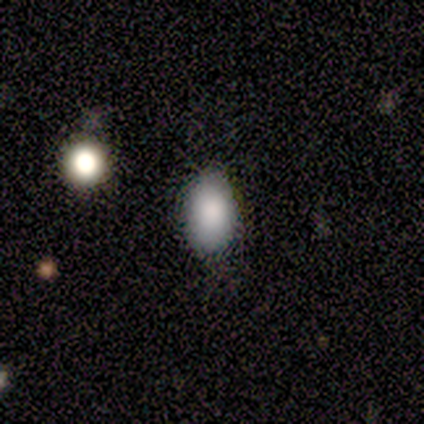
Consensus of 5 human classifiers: Smooth or featured? 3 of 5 (60%) said smooth. How rounded? 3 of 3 (100%) said in between. Merging? 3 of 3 (100%) said none.